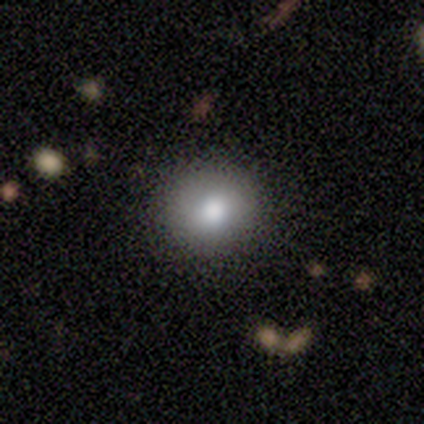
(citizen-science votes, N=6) Volunteers were most divided on "how rounded": round: 80%, in between: 20%, cigar-shaped: 0%. More confident: smooth or featured — smooth (83%); merging — none (80%).